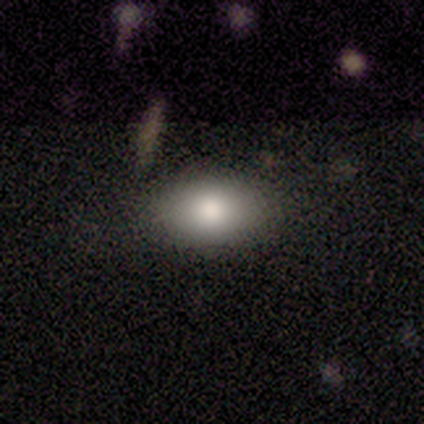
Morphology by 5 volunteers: A smooth galaxy with no disk features (80%) that is in between round and cigar-shaped (75%).

Vote fractions:
- Smooth or featured? smooth: 80% / star or artifact: 20% / featured or disk: 0%
- How rounded? in between: 75% / round: 25% / cigar-shaped: 0%
- Merging? none: 75% / merger: 25% / minor disturbance: 0% / major disturbance: 0%